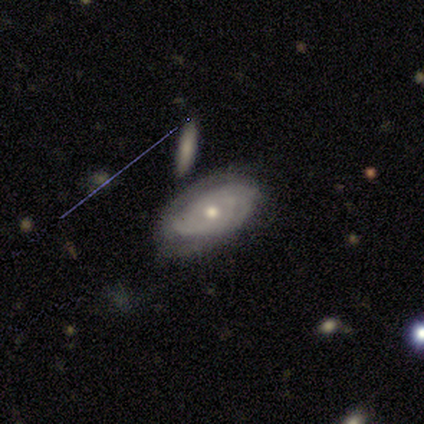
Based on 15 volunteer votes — smooth-or-featured: featured or disk: 80% | smooth: 13% | star or artifact: 7%
  disk-edge-on: no: 92% | yes: 8%
    bar: no: 100% | strong: 0% | weak: 0%
    has-spiral-arms: yes: 100% | no: 0%
      spiral-winding: tight: 73% | medium: 27% | loose: 0%
      spiral-arm-count: 2: 64% | can't tell: 18% | 1: 9% | 3: 9% | 4: 0% | more than 4: 0%
    bulge-size: moderate: 73% | small: 27% | dominant: 0% | large: 0% | none: 0%
  merging: none: 64% | minor disturbance: 29% | merger: 7% | major disturbance: 0%